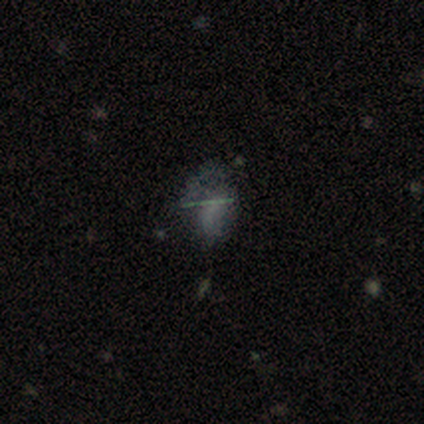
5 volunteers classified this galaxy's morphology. A featured or disk galaxy (40%, tied with star or artifact) viewed edge-on (50%, tied with no) with no central bulge (100%). Merging: major disturbance (67%).